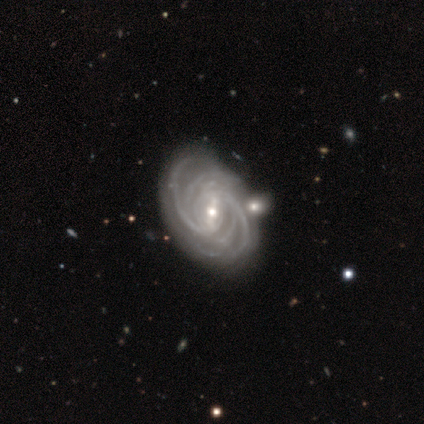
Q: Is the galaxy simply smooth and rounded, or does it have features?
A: featured or disk — 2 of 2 (100%).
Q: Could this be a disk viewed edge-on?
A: no — 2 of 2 (100%).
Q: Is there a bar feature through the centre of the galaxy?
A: strong — 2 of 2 (100%).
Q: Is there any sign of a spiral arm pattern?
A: yes — 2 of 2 (100%).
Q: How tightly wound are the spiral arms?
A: tight — 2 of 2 (100%).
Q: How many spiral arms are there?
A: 4 — 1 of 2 (50%, tied with more than 4).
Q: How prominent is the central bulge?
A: small — 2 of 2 (100%).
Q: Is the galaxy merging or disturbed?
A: none — 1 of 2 (50%, tied with minor disturbance).